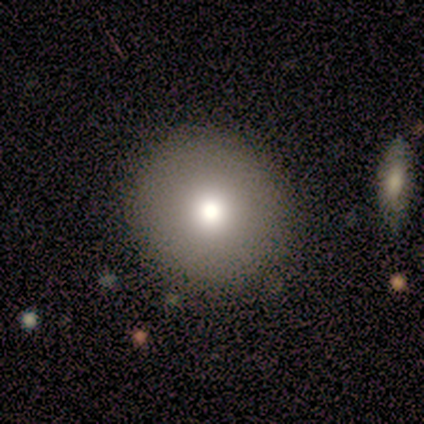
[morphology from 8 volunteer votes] Q: Smooth or featured?
A: smooth (88%); runner-up: star or artifact (12%)
Q: How rounded?
A: round (100%)
Q: Merging?
A: none (71%); runner-up: minor disturbance (14%)